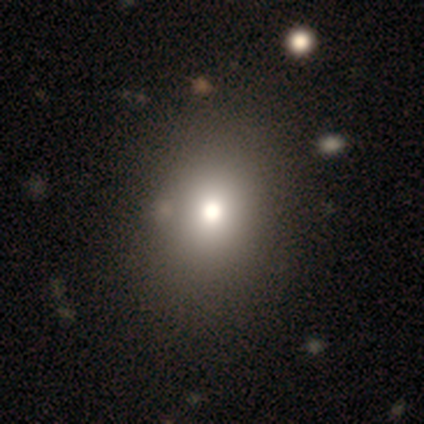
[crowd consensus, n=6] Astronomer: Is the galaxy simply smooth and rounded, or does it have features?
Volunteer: smooth — 50% (runner-up: star or artifact, 33%).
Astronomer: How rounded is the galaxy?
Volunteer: in between — 67%.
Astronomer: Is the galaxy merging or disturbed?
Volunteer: none — 75%.